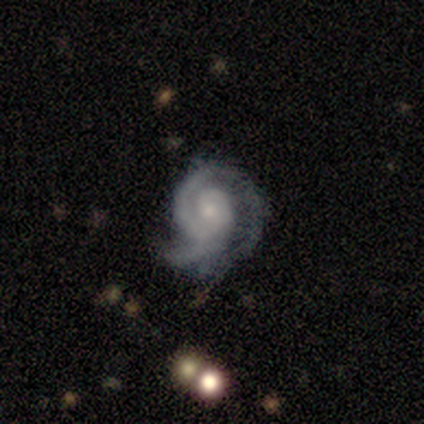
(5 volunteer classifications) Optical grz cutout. It shows a featured or disk galaxy (100%) with no bar (100%), 2 (80%) tight (60%) spiral arms (100%) and a small central bulge (100%). Merging: none (80%).